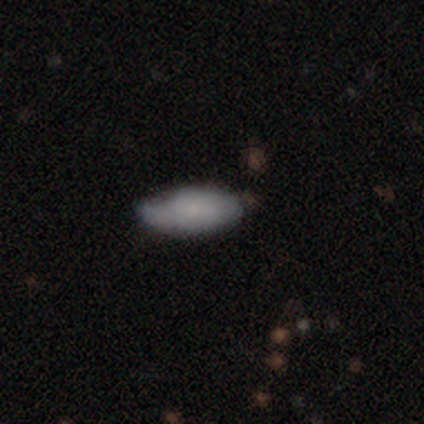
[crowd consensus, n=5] Smooth or featured? smooth (100%)
How rounded? in between (60%)
Merging? none (60%)